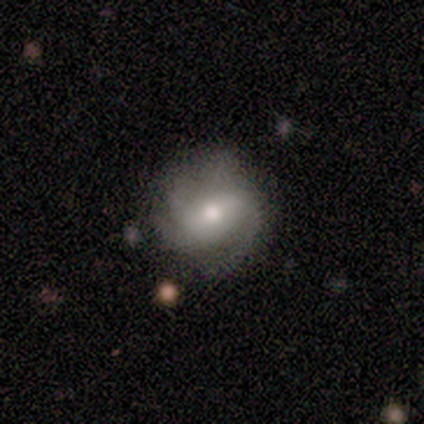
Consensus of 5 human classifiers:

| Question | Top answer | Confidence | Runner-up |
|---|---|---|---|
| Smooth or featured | smooth | 40% | tied: featured or disk (40%) |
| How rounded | round | 50% | tied: in between (50%) |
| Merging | none | 50% | tied: minor disturbance (50%) |